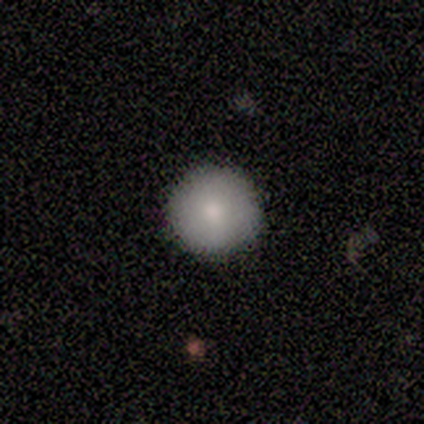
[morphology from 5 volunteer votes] Smooth or featured: smooth — 80% (star or artifact — 20%)
How rounded: round — 100%
Merging: none — 75% (minor disturbance — 25%)